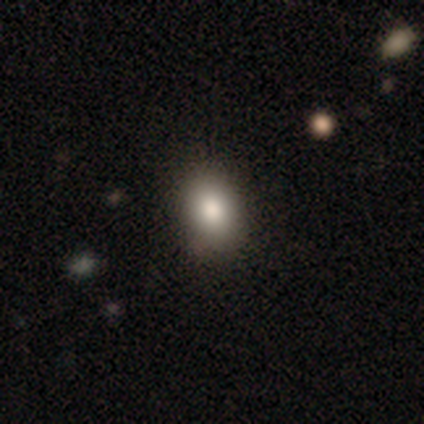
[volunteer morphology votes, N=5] smooth_or_featured: smooth (p=0.60) [alt: featured or disk p=0.20]
how_rounded: in between (p=1.00)
merging: none (p=0.75) [alt: minor disturbance p=0.25]